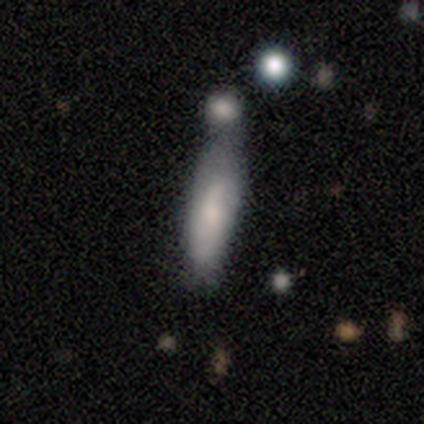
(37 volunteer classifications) Overall: smooth (62%; featured or disk 30%). How rounded: cigar-shaped (83%). Merging: merger (35%; none 32%).